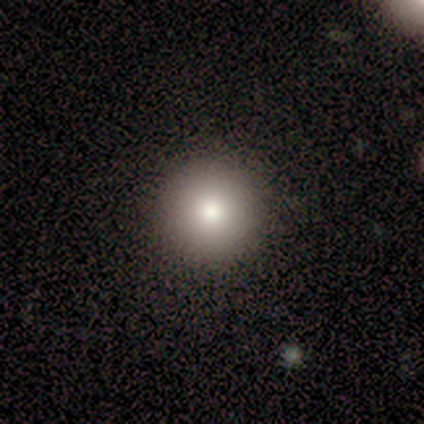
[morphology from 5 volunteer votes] Smooth or featured: smooth — 100%
How rounded: round — 100%
Merging: none — 100%